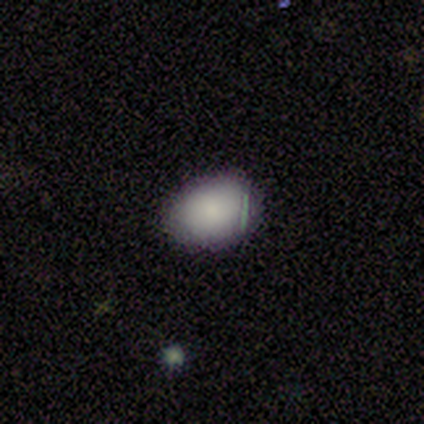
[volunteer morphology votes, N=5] type=smooth (80%); roundness=in between (75%); merging=none (80%).